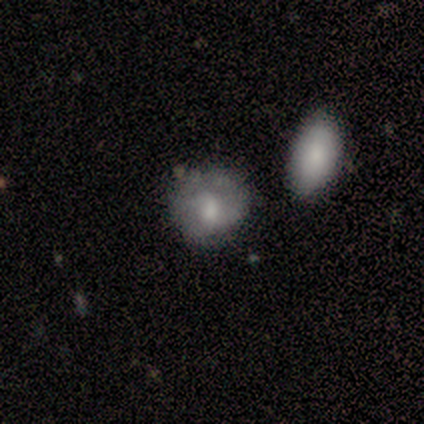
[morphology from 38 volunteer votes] A smooth galaxy with no disk features (55%) that is round (57%). Merging: none (71%).